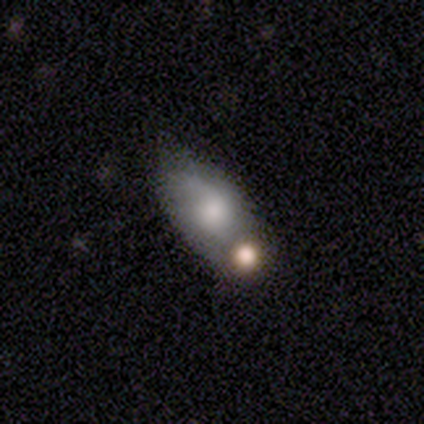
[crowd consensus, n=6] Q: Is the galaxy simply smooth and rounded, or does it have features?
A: smooth — 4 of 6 (67%).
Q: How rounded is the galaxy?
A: in between — 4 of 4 (100%).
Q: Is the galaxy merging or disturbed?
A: none — 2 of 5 (40%, tied with minor disturbance).